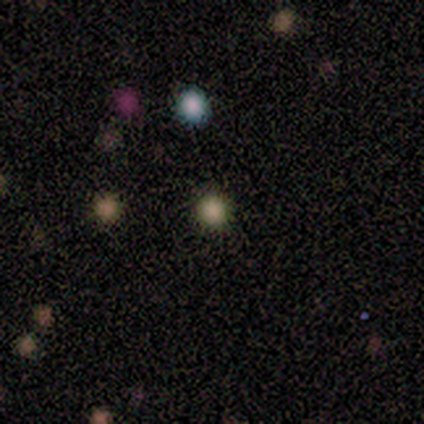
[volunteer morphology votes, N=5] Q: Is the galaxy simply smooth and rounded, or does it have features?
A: smooth — 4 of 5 (80%).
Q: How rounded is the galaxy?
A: round — 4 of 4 (100%).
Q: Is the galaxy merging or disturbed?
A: none — 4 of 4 (100%).